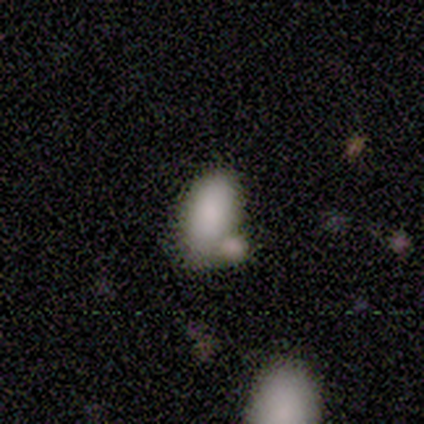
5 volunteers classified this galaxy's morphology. Smooth or featured? smooth (80%)
How rounded? in between (75%)
Merging? none (40%, tied with merger)